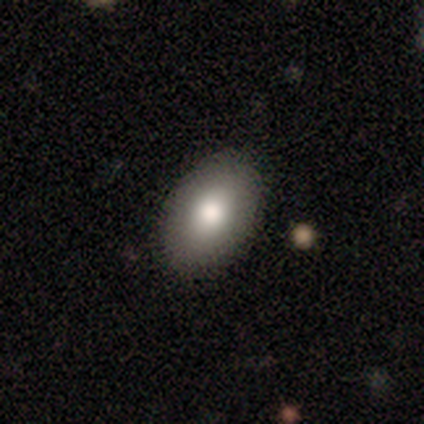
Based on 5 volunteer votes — smooth 100%, featured or disk 0%, star or artifact 0%. Down the decision tree: how rounded — in between (100%); merging — none (80%).